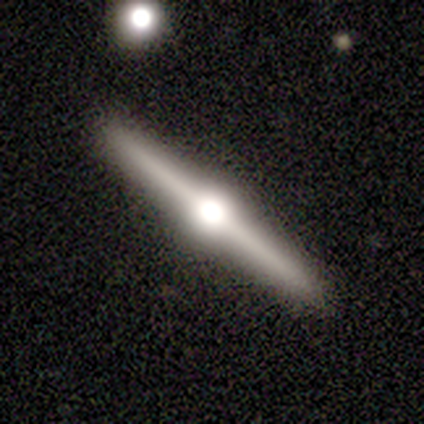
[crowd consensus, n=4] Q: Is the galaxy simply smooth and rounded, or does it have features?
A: featured or disk — 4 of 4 (100%).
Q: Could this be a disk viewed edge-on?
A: yes — 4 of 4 (100%).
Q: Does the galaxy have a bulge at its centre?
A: rounded — 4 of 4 (100%).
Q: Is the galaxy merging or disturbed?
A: none — 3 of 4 (75%).